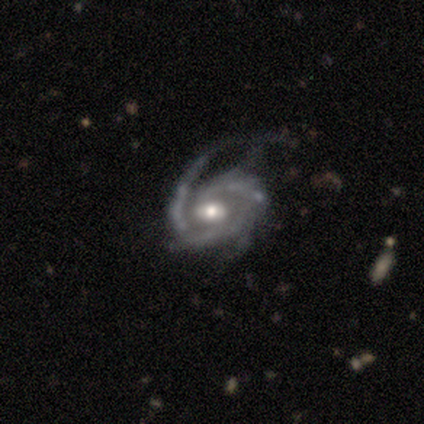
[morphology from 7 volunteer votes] Overall: featured or disk (100%). Edge-on disk: no (100%). Bar: no (43%; strong 29%). Spiral arms: yes (100%). Spiral arm count: 2 (71%). Spiral winding: medium (71%). Bulge size: moderate (57%; small 43%). Merging: none (57%; major disturbance 29%).